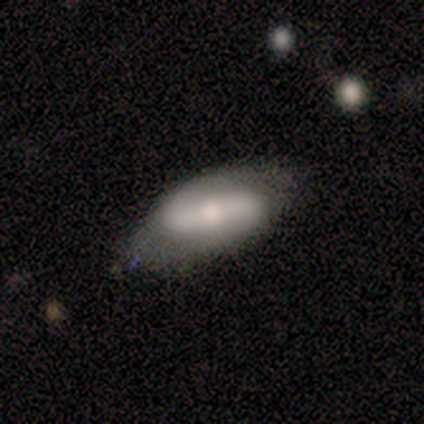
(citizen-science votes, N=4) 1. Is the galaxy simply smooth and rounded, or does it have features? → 75% smooth, 25% featured or disk, 0% star or artifact.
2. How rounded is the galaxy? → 67% in between, 33% cigar-shaped, 0% round.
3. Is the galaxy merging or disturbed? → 50% none, 25% major disturbance, 25% merger, 0% minor disturbance.